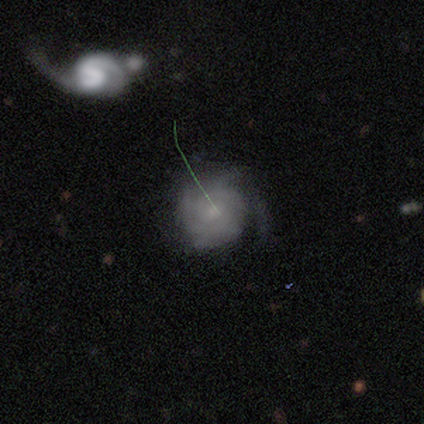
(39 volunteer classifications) Q: Smooth or featured?
A: featured or disk (74%); runner-up: smooth (21%)
Q: Edge-on disk?
A: no (97%); runner-up: yes (3%)
Q: Bar?
A: no (79%); runner-up: weak (21%)
Q: Spiral arms?
A: yes (93%); runner-up: no (7%)
Q: Spiral winding?
A: tight (65%); runner-up: medium (27%)
Q: Spiral arm count?
A: can't tell (42%); runner-up: 4 (35%)
Q: Bulge size?
A: small (46%); runner-up: moderate (29%)
Q: Merging?
A: none (57%); runner-up: minor disturbance (27%)